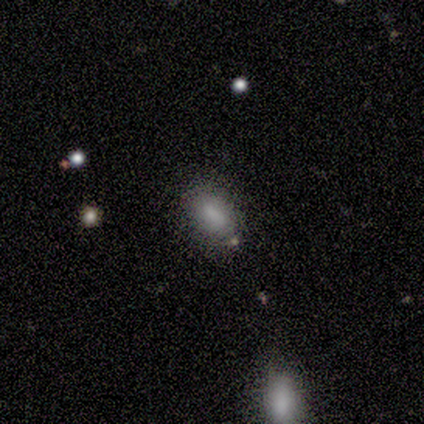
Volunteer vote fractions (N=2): smooth 100%, featured or disk 0%, star or artifact 0%. Down the decision tree: how rounded — in between (100%); merging — none (50%, tied with minor disturbance).